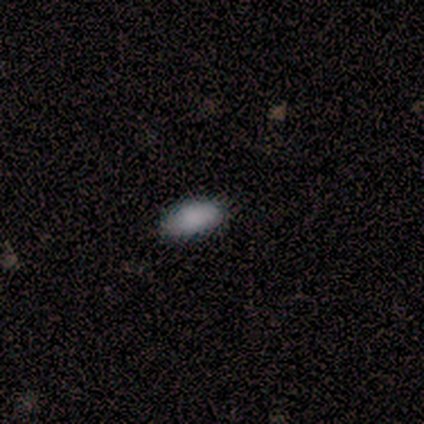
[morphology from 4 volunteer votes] smooth_or_featured: smooth (p=0.75) [alt: star or artifact p=0.25]
how_rounded: in between (p=1.00)
merging: none (p=0.67) [alt: minor disturbance p=0.33]